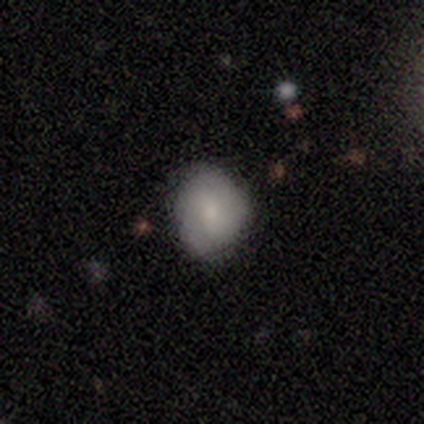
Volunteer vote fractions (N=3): Smooth or featured? smooth (100%)
How rounded? round (67%)
Merging? none (100%)